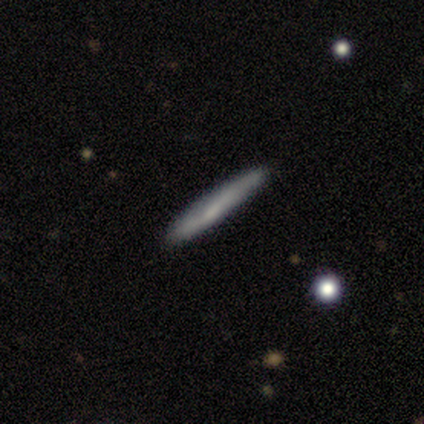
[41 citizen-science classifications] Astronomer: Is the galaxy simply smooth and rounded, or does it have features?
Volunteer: smooth — 54% (runner-up: featured or disk, 41%).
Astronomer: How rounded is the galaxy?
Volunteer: cigar-shaped — 95%.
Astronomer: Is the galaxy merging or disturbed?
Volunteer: none — 90%.